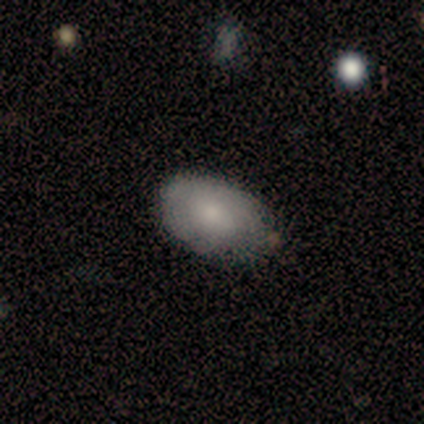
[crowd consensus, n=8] smooth-or-featured: smooth: 75% | featured or disk: 12% | star or artifact: 12%
  how-rounded: in between: 83% | round: 17% | cigar-shaped: 0%
  merging: none: 57% | minor disturbance: 29% | merger: 14% | major disturbance: 0%